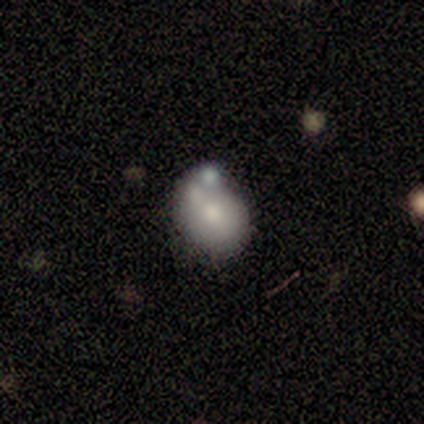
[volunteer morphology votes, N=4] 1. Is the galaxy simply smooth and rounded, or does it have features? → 50% smooth, 25% featured or disk, 25% star or artifact.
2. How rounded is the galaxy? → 100% round, 0% in between, 0% cigar-shaped.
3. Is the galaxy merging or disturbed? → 100% merger, 0% none, 0% minor disturbance, 0% major disturbance.